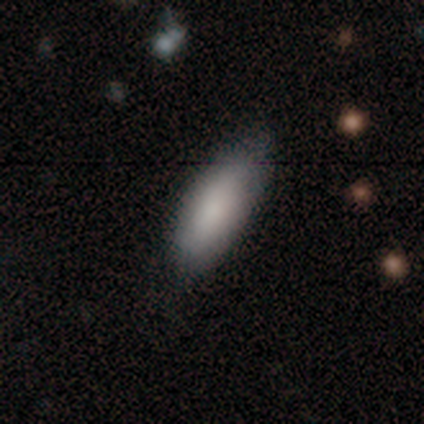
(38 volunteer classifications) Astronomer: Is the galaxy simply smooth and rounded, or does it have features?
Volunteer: smooth — 84%.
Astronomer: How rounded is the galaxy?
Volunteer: in between — 72%.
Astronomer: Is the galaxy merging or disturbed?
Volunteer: none — 81%.